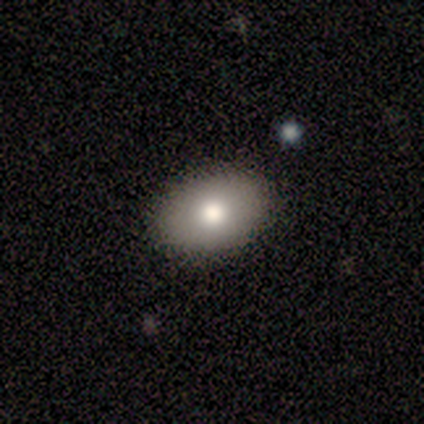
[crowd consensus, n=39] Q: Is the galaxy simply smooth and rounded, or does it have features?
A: smooth — 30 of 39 (77%).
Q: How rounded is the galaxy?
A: in between — 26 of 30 (87%).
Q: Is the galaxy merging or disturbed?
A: none — 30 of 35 (86%).